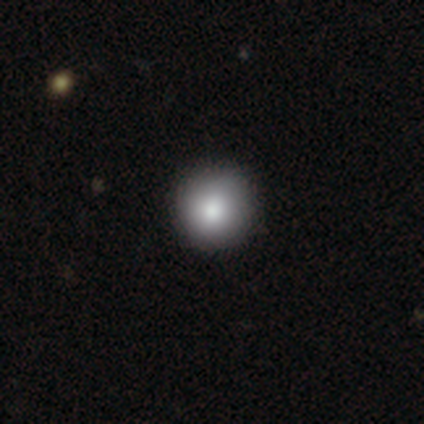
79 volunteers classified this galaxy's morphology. A smooth galaxy with no disk features (89%) that is round (96%).

Vote fractions:
- Smooth or featured? smooth: 89% / star or artifact: 6% / featured or disk: 5%
- How rounded? round: 96% / in between: 3% / cigar-shaped: 1%
- Merging? none: 47% / minor disturbance: 1% / major disturbance: 1% / merger: 1%